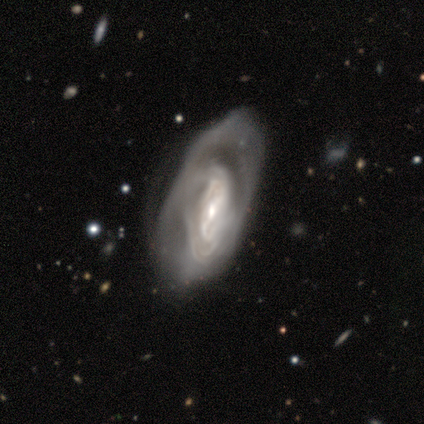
Smooth or featured?
  - featured or disk: 79% *
  - smooth: 13%
  - star or artifact: 8%
Edge-on disk?
  - no: 90% *
  - yes: 10%
Bar?
  - weak: 39% * (tied)
  - no: 39% * (tied)
  - strong: 21%
Spiral arms?
  - yes: 75% *
  - no: 25%
Spiral winding?
  - tight: 43% *
  - loose: 38%
  - medium: 19%
Spiral arm count?
  - can't tell: 57% *
  - 2: 33%
  - 4: 5%
  - more than 4: 5%
  - 1: 0%
  - 3: 0%
Bulge size?
  - small: 57% *
  - moderate: 32%
  - large: 7%
  - none: 4%
  - dominant: 0%
Merging?
  - none: 47% *
  - major disturbance: 39%
  - minor disturbance: 14%
  - merger: 0%